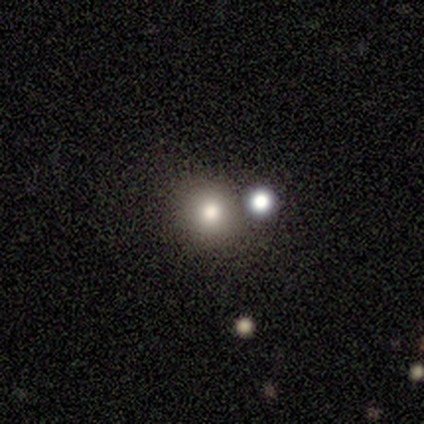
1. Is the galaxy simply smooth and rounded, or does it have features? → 80% smooth, 20% star or artifact, 0% featured or disk.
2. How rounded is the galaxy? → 100% round, 0% in between, 0% cigar-shaped.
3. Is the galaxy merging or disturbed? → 100% none, 0% minor disturbance, 0% major disturbance, 0% merger.